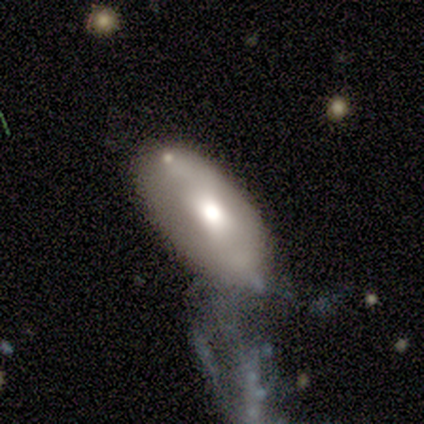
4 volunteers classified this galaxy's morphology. smooth 75%, featured or disk 25%, star or artifact 0%. Down the decision tree: how rounded — in between (100%); merging — major disturbance (50%).